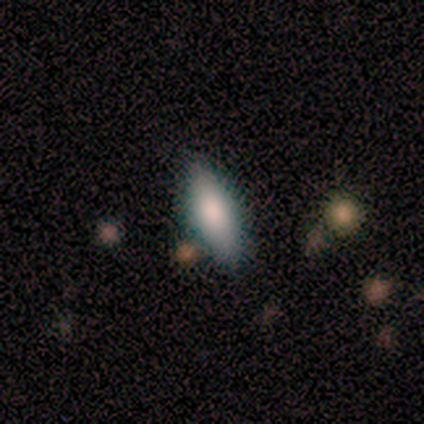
A smooth galaxy with no disk features (75%) that is in between round and cigar-shaped (67%).

Vote fractions:
- Smooth or featured? smooth: 75% / featured or disk: 25% / star or artifact: 0%
- How rounded? in between: 67% / cigar-shaped: 33% / round: 0%
- Merging? none: 88% / minor disturbance: 12% / major disturbance: 0% / merger: 0%